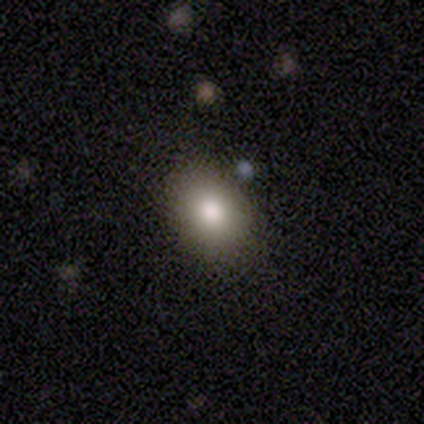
A smooth galaxy with no disk features (67%) that is round (50%, tied with in between). Merging: none (100%).